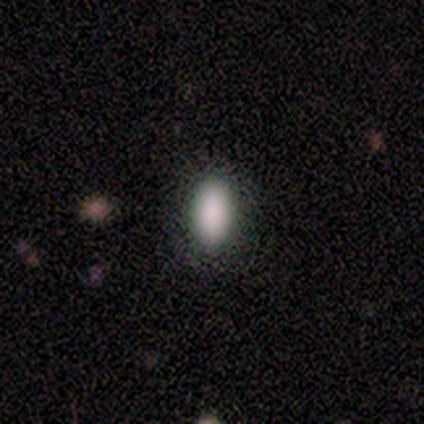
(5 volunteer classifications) Smooth or featured? smooth (80%)
How rounded? in between (75%)
Merging? none (80%)